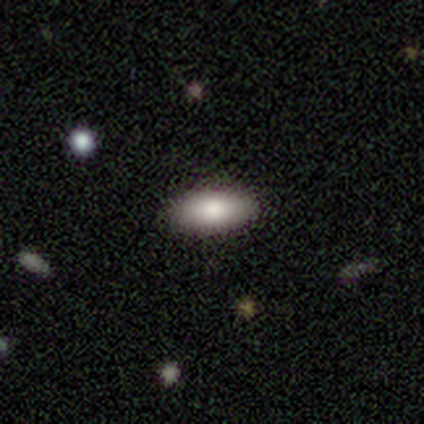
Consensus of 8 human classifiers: Smooth or featured? 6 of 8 (75%) said smooth. How rounded? 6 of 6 (100%) said in between. Merging? 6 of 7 (86%) said none.